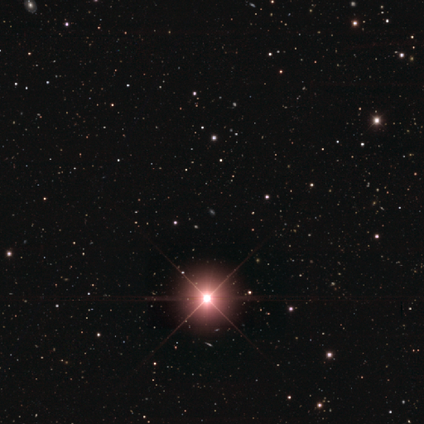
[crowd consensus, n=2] smooth_or_featured: star or artifact (p=1.00)